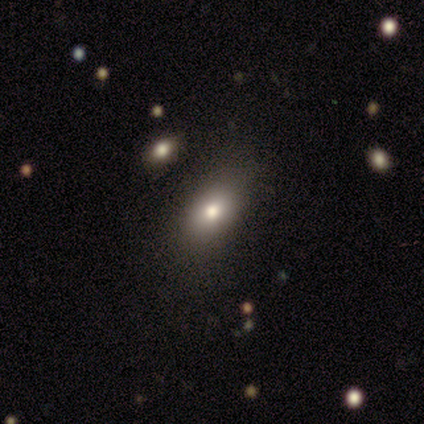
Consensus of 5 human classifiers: smooth_or_featured: smooth (p=1.00)
how_rounded: in between (p=1.00)
merging: none (p=1.00)